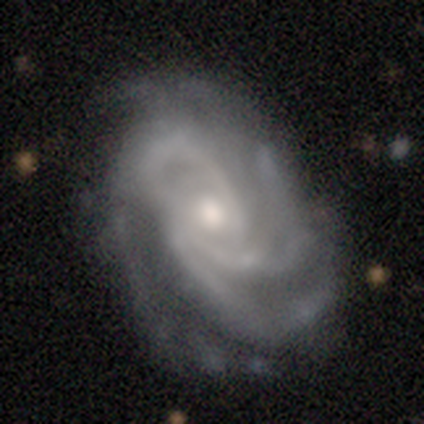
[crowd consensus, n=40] smooth_or_featured: featured or disk (p=0.90) [alt: smooth p=0.07]
disk_edge_on: no (p=1.00)
bar: no (p=0.58) [alt: weak p=0.31]
has_spiral_arms: yes (p=1.00)
spiral_winding: tight (p=0.56) [alt: medium p=0.39]
spiral_arm_count: 3 (p=0.61) [alt: 4 p=0.22]
bulge_size: moderate (p=0.72) [alt: small p=0.25]
merging: none (p=0.59) [alt: minor disturbance p=0.28]